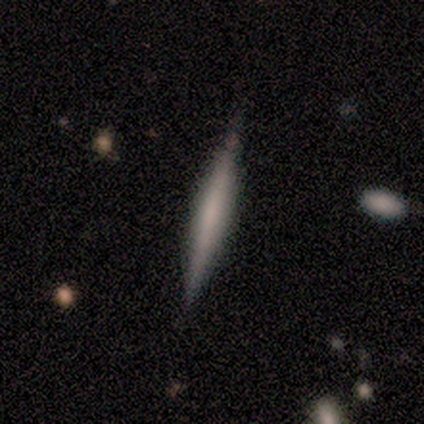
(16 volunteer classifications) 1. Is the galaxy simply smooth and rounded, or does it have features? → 44% smooth, 38% star or artifact, 19% featured or disk.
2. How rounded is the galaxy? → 100% cigar-shaped, 0% round, 0% in between.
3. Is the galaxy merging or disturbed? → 90% none, 10% minor disturbance, 0% major disturbance, 0% merger.